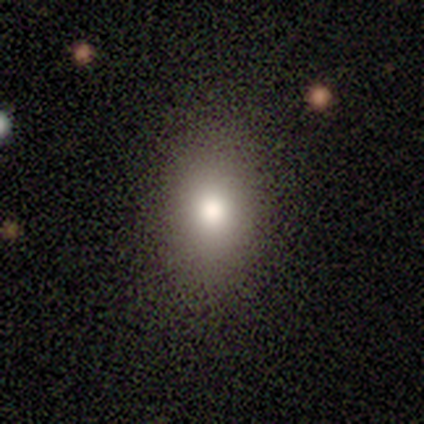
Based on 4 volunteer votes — Overall: smooth (50%; featured or disk 25%). How rounded: round (50%, tied with in between). Merging: none (100%).